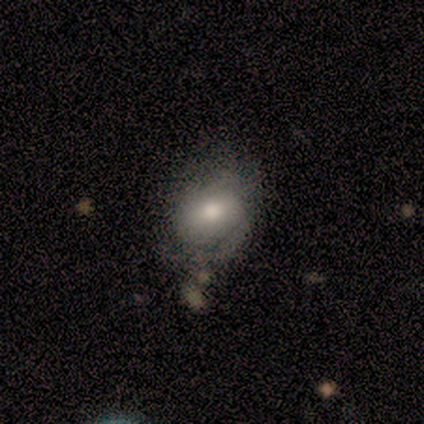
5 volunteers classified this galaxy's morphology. Smooth or featured?
  - smooth: 80% *
  - featured or disk: 20%
  - star or artifact: 0%
How rounded?
  - in between: 100% *
  - round: 0%
  - cigar-shaped: 0%
Merging?
  - major disturbance: 40% *
  - none: 20%
  - minor disturbance: 20%
  - merger: 20%